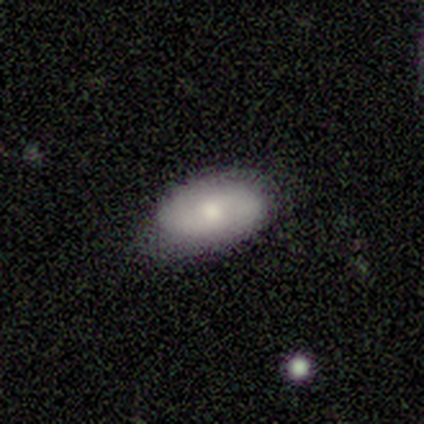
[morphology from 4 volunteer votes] smooth 50% (tied), featured or disk 50% (tied), star or artifact 0%. Down the decision tree: how rounded — in between (100%); merging — minor disturbance (50%).